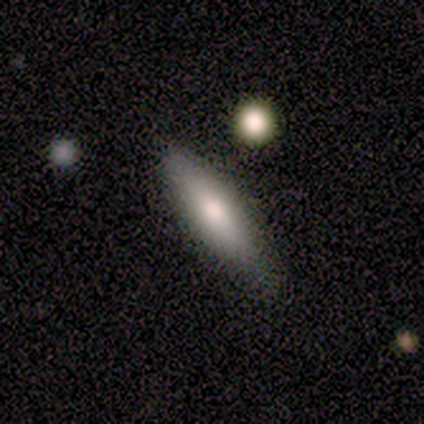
smooth 60%, featured or disk 20%, star or artifact 20%. Down the decision tree: how rounded — in between (67%); merging — none (75%).